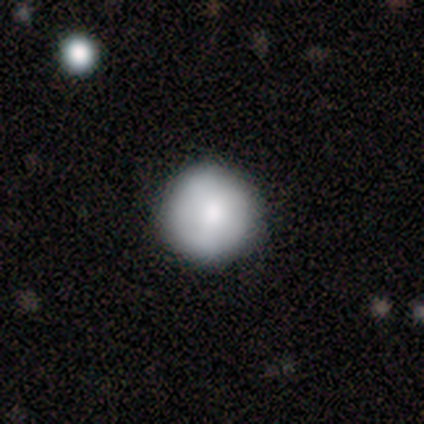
A smooth galaxy with no disk features (67%) that is round (100%).

Vote fractions:
- Smooth or featured? smooth: 67% / star or artifact: 33% / featured or disk: 0%
- How rounded? round: 100% / in between: 0% / cigar-shaped: 0%
- Merging? none: 50% (tied) / minor disturbance: 50% (tied) / major disturbance: 0% / merger: 0%